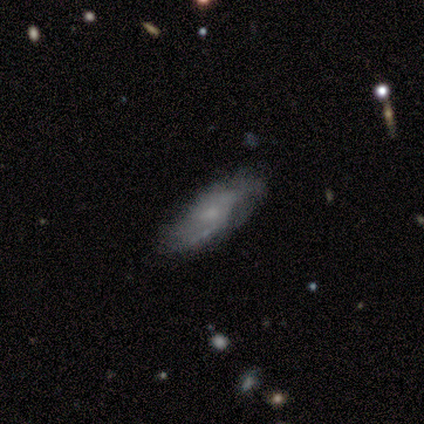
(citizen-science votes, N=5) A smooth galaxy with no disk features (40%, tied with featured or disk) that is in between round and cigar-shaped (50%, tied with cigar-shaped). Merging: none (75%).